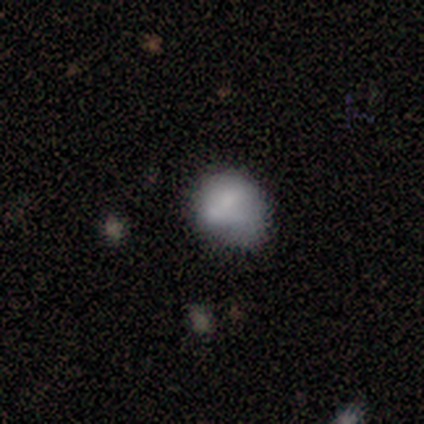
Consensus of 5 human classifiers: Smooth or featured?
  - smooth: 80% *
  - featured or disk: 20%
  - star or artifact: 0%
How rounded?
  - round: 75% *
  - in between: 25%
  - cigar-shaped: 0%
Merging?
  - none: 60% *
  - minor disturbance: 40%
  - major disturbance: 0%
  - merger: 0%